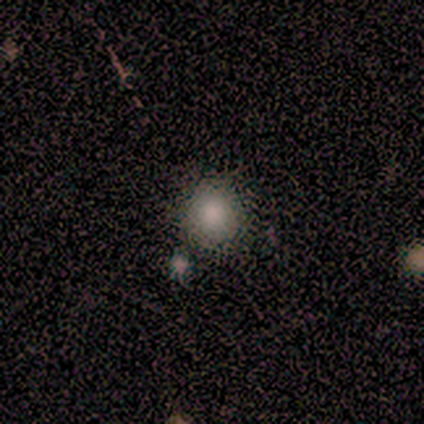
A smooth galaxy with no disk features (80%) that is round (100%).

Vote fractions:
- Smooth or featured? smooth: 80% / featured or disk: 20% / star or artifact: 0%
- How rounded? round: 100% / in between: 0% / cigar-shaped: 0%
- Merging? none: 100% / minor disturbance: 0% / major disturbance: 0% / merger: 0%